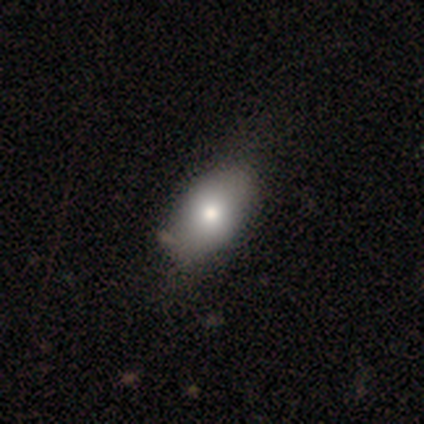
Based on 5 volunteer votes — Volunteers were most divided on "merging": none: 75%, minor disturbance: 25%, major disturbance: 0%, merger: 0%. More confident: how rounded — in between (100%); smooth or featured — smooth (80%).